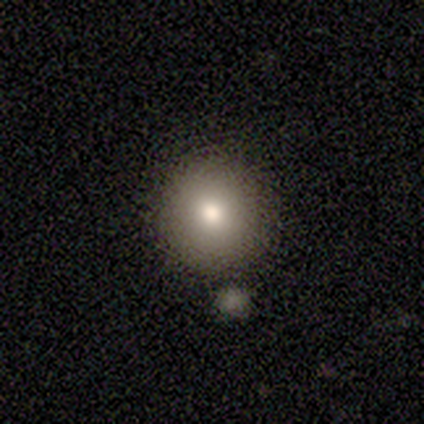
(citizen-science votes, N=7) Q: Smooth or featured?
A: smooth (100%)
Q: How rounded?
A: round (100%)
Q: Merging?
A: none (86%); runner-up: merger (14%)